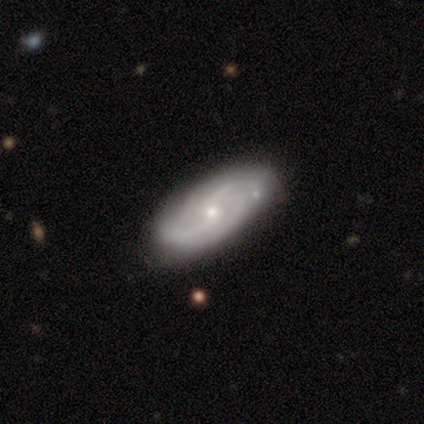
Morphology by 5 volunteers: Smooth or featured: featured or disk — 100%
Edge-on disk: no — 80% (yes — 20%)
Bar: weak — 75% (no — 25%)
Spiral arms: yes — 100%
Spiral winding: medium — 50% (tied with loose — 50%)
Spiral arm count: 2 — 75% (can't tell — 25%)
Bulge size: small — 75% (none — 25%)
Merging: none — 80% (merger — 20%)